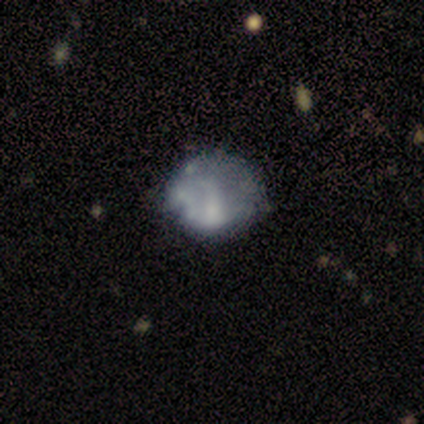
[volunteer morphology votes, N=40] This appears to be a featured or disk galaxy (50%) with no bar (80%), no spiral arms (95%) and no central bulge (70%). Merging: minor disturbance (31%).